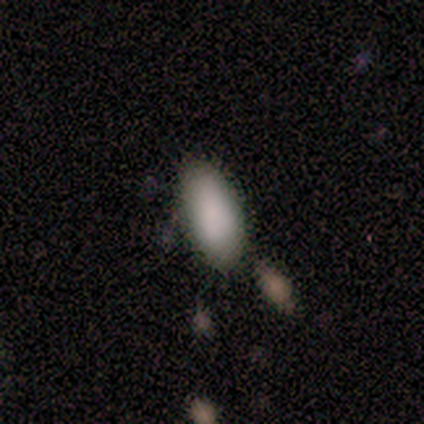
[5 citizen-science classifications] Smooth or featured?
  - smooth: 100% *
  - featured or disk: 0%
  - star or artifact: 0%
How rounded?
  - in between: 100% *
  - round: 0%
  - cigar-shaped: 0%
Merging?
  - none: 60% *
  - minor disturbance: 20%
  - merger: 20%
  - major disturbance: 0%